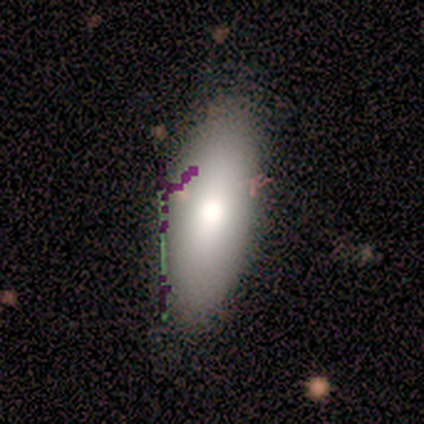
This appears to be a smooth galaxy with no disk features (50%) that is in between round and cigar-shaped (100%). Merging: none (80%).